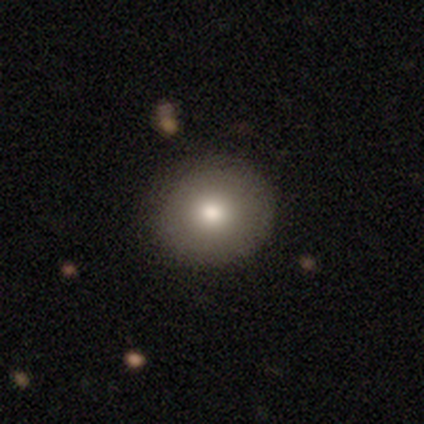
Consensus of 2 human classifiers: smooth_or_featured: smooth (p=1.00)
how_rounded: round (p=1.00)
merging: none (p=1.00)